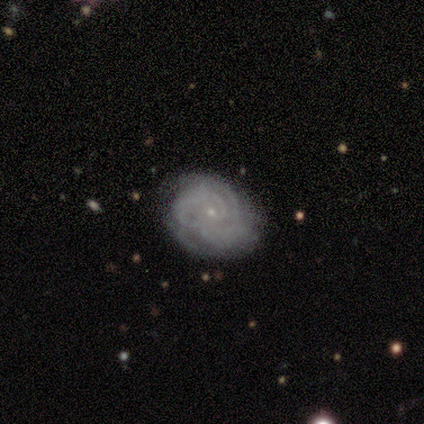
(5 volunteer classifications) Volunteers were most divided on "merging" (2-way tie): none: 40%, minor disturbance: 40%, merger: 20%, major disturbance: 0%. More confident: edge-on disk — no (100%); bar — no (100%); spiral arms — yes (100%); bulge size — small (100%); spiral winding — tight (67%); spiral arm count — can't tell (67%); smooth or featured — featured or disk (60%).